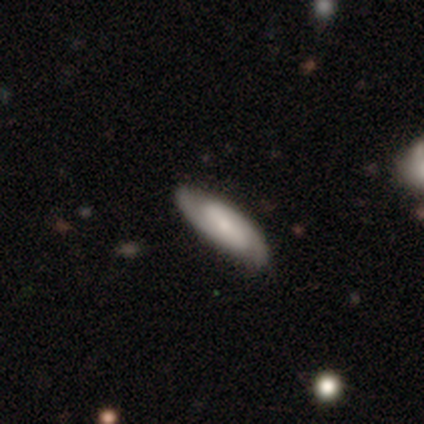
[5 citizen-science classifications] Smooth or featured? featured or disk (80%)
Edge-on disk? no (75%)
Bar? strong (33%, tied with weak and no)
Spiral arms? yes (100%)
Spiral winding? tight (33%, tied with medium and loose)
Spiral arm count? 1 (33%, tied with 2 and can't tell)
Bulge size? small (100%)
Merging? none (80%)